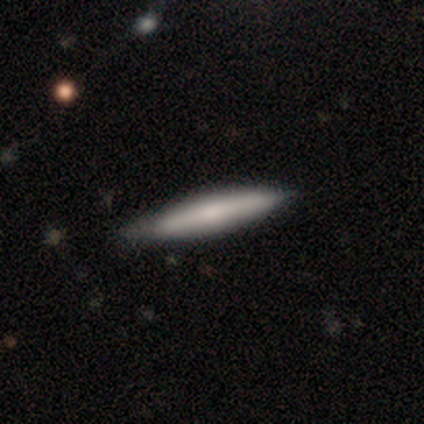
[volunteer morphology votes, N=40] Q: Smooth or featured?
A: featured or disk (52%); runner-up: smooth (48%)
Q: Edge-on disk?
A: yes (90%); runner-up: no (10%)
Q: Edge-on bulge?
A: none (47%); runner-up: rounded (32%)
Q: Merging?
A: none (62%); runner-up: minor disturbance (18%)